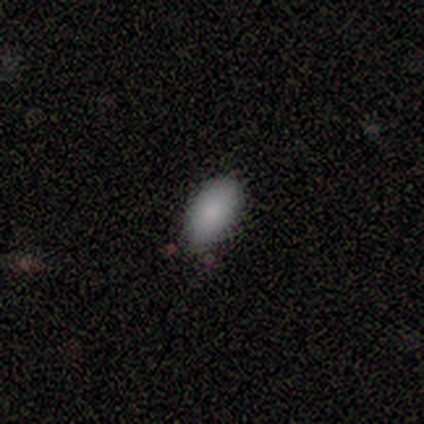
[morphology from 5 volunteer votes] smooth-or-featured: smooth: 100% | featured or disk: 0% | star or artifact: 0%
  how-rounded: in between: 80% | cigar-shaped: 20% | round: 0%
  merging: none: 60% | minor disturbance: 20% | major disturbance: 20% | merger: 0%